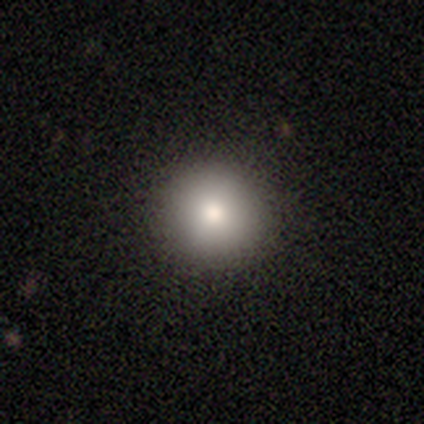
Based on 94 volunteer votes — Overall: smooth (79%). How rounded: round (97%). Merging: none (92%).